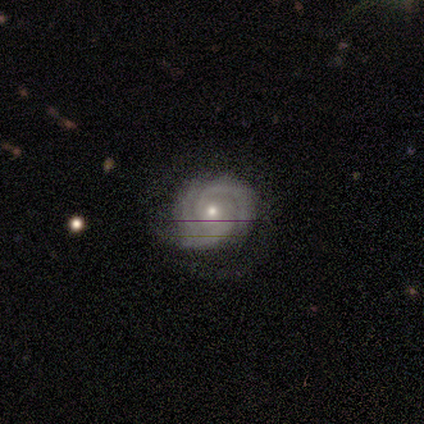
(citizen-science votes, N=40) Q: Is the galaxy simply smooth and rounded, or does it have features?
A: featured or disk — 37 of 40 (92%).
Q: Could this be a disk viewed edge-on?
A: no — 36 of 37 (97%).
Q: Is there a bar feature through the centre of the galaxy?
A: no — 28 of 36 (78%).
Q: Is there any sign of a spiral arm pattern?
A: yes — 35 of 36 (97%).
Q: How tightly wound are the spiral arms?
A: tight — 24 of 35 (69%).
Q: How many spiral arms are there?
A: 2 — 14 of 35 (40%, tied with 3).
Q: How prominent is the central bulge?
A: small — 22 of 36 (61%).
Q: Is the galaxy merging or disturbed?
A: none — 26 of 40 (65%).